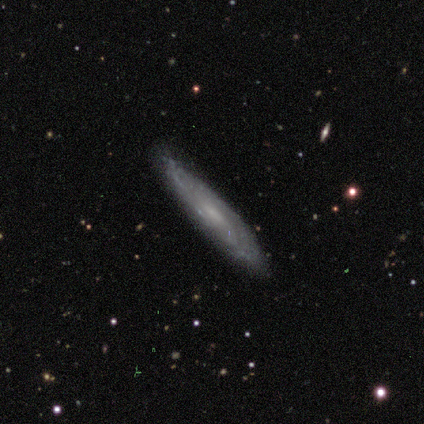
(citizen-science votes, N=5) smooth-or-featured: featured or disk: 80% | smooth: 20% | star or artifact: 0%
  disk-edge-on: yes: 50% (tied) | no: 50% (tied)
    edge-on-bulge: none: 50% (tied) | rounded: 50% (tied) | boxy: 0%
  merging: none: 100% | minor disturbance: 0% | major disturbance: 0% | merger: 0%